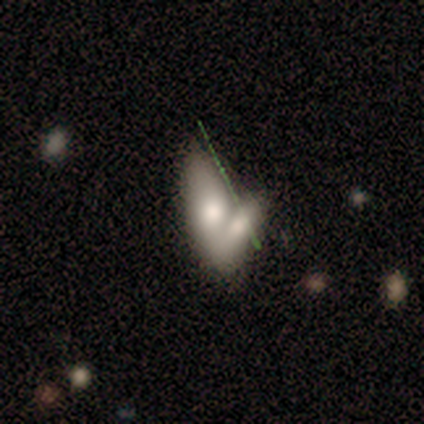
smooth-or-featured: smooth: 67% | featured or disk: 22% | star or artifact: 11%
  how-rounded: in between: 67% | round: 17% | cigar-shaped: 17%
  merging: merger: 75% | none: 25% | minor disturbance: 0% | major disturbance: 0%